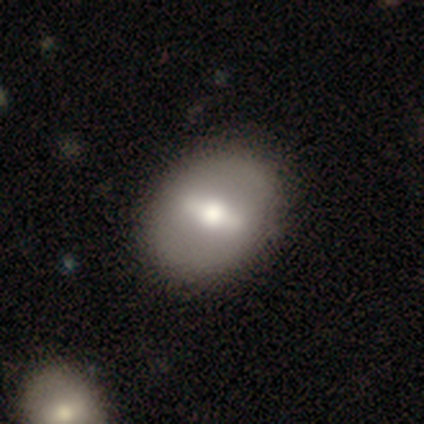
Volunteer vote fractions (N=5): smooth_or_featured: smooth (p=0.80) [alt: featured or disk p=0.20]
how_rounded: in between (p=0.75) [alt: round p=0.25]
merging: none (p=1.00)